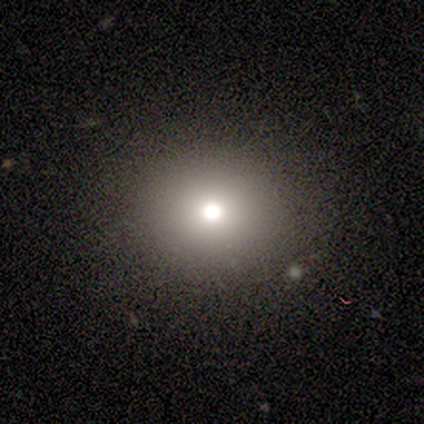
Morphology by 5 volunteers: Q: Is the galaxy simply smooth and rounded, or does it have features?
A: smooth — 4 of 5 (80%).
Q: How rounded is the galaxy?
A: round — 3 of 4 (75%).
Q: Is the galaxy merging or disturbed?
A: none — 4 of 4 (100%).